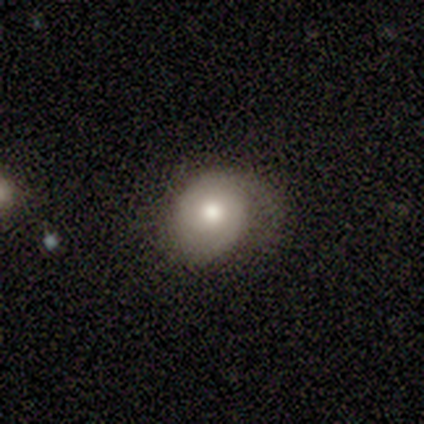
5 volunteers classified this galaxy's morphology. type=featured or disk (80%); edge-on=no (100%); bar=no (100%); spiral arms=yes (50%, tied with no); winding=medium (100%); arm count=1 (50%, tied with 2); bulge=moderate (75%); merging=none (75%).